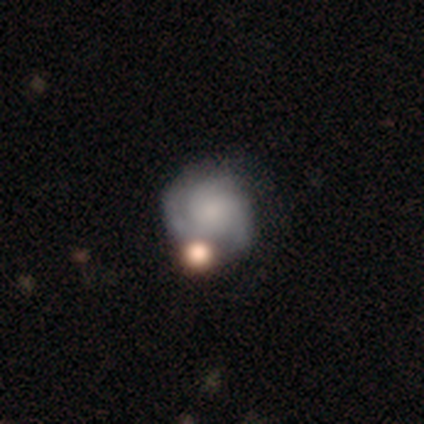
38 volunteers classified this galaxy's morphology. Overall: featured or disk (79%). Edge-on disk: no (100%). Bar: no (83%). Spiral arms: yes (93%). Spiral arm count: 3 (57%; 2 32%). Spiral winding: tight (61%; medium 29%). Bulge size: small (43%; none 33%). Merging: none (59%).